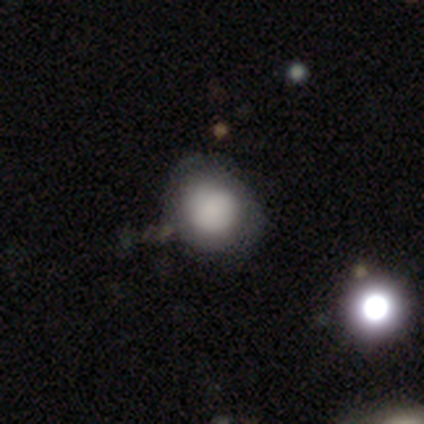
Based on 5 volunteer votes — This appears to be a smooth galaxy with no disk features (100%) that is round (80%). Merging: none (80%).